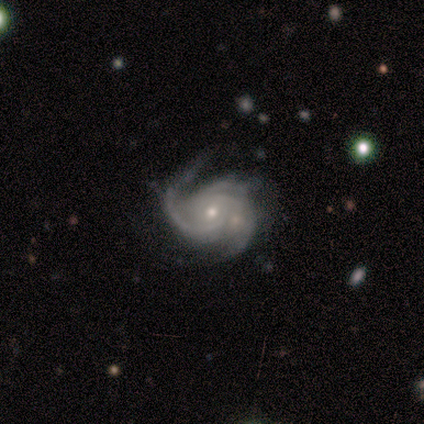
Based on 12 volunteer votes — smooth_or_featured: featured or disk (p=1.00)
disk_edge_on: no (p=0.92) [alt: yes p=0.08]
bar: no (p=0.55) [alt: strong p=0.27]
has_spiral_arms: yes (p=1.00)
spiral_winding: tight (p=0.55) [alt: medium p=0.45]
spiral_arm_count: 3 (p=0.82) [alt: 4 p=0.09]
bulge_size: small (p=0.91) [alt: moderate p=0.09]
merging: none (p=0.67) [alt: minor disturbance p=0.25]